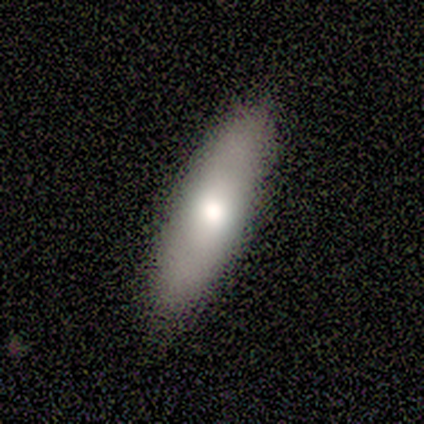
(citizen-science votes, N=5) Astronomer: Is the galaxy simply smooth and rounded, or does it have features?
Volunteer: smooth — 60% (runner-up: featured or disk, 40%).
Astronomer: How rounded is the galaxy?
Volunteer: cigar-shaped — 67%.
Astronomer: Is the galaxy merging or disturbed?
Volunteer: none — 100%.